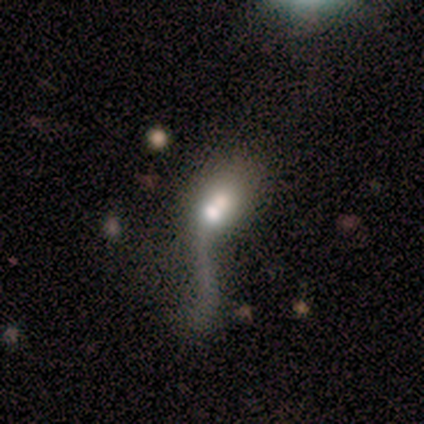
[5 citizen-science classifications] smooth-or-featured: smooth: 40% (tied) | featured or disk: 40% (tied) | star or artifact: 20%
  how-rounded: in between: 50% (tied) | cigar-shaped: 50% (tied) | round: 0%
  merging: merger: 50% | none: 25% | major disturbance: 25% | minor disturbance: 0%